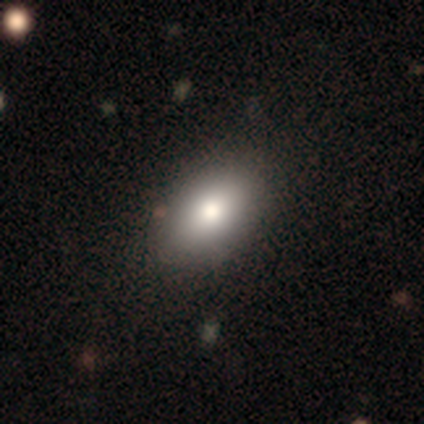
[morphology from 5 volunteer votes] This is clearly a smooth galaxy (80%). How rounded: likely in between (75%). Merging: clearly none (80%).